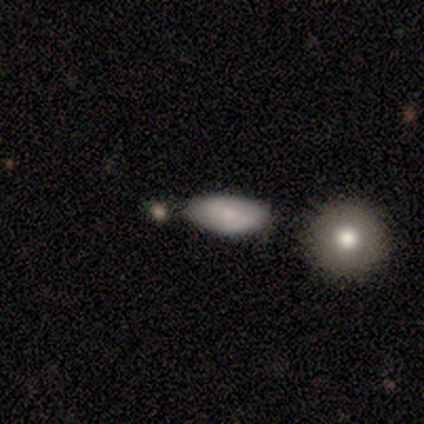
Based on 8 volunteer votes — Smooth or featured? smooth (75%)
How rounded? in between (100%)
Merging? none (71%)